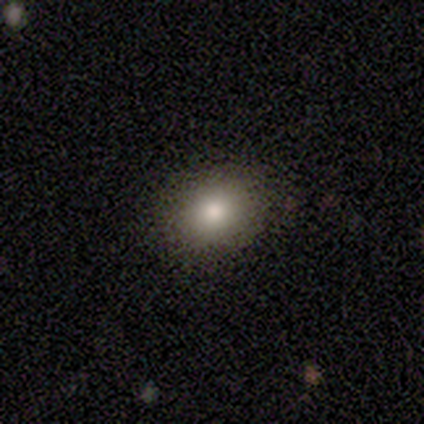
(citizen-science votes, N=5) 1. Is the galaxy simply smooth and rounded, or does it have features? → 80% smooth, 20% star or artifact, 0% featured or disk.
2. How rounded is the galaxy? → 75% in between, 25% round, 0% cigar-shaped.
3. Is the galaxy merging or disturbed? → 75% none, 25% minor disturbance, 0% major disturbance, 0% merger.